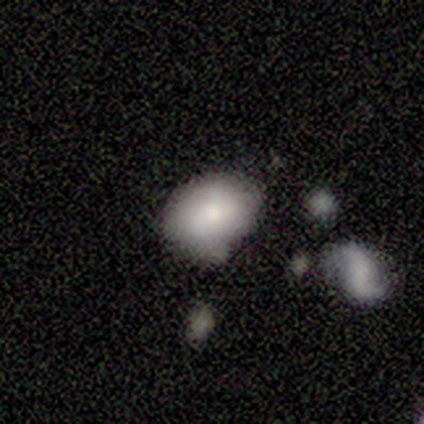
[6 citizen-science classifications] Smooth or featured: smooth — 67% (featured or disk — 33%)
How rounded: in between — 100%
Merging: none — 67% (major disturbance — 33%)